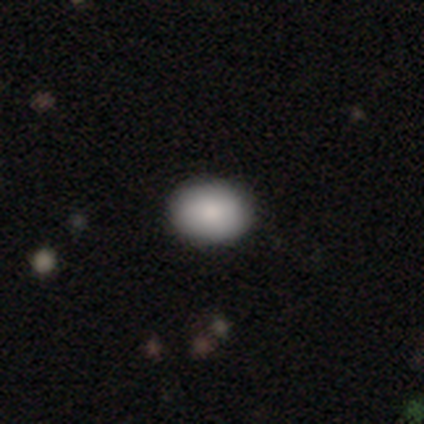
This is clearly a smooth galaxy (92%). How rounded: likely in between (76%). Merging: clearly none (100%).